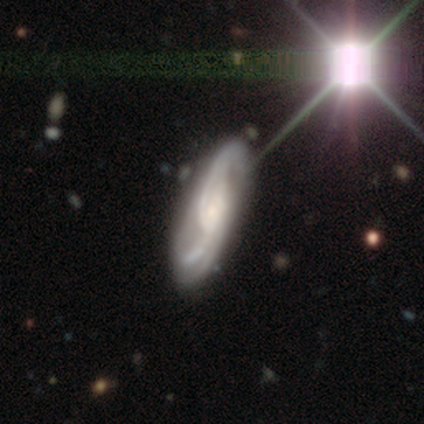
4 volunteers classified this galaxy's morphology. Overall: featured or disk (100%). Edge-on disk: no (100%). Bar: no (75%). Spiral arms: yes (100%). Spiral arm count: 2 (100%). Spiral winding: medium (75%). Bulge size: moderate (50%, tied with small). Merging: none (100%).